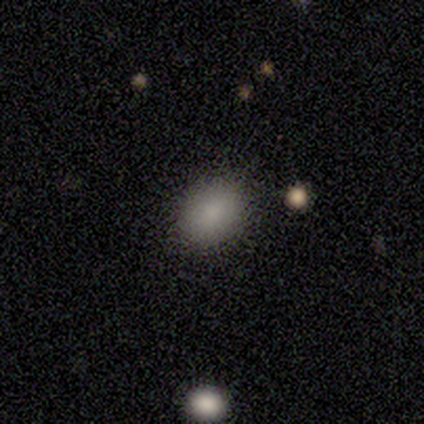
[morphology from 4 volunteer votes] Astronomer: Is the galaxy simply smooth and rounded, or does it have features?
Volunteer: smooth — 75%.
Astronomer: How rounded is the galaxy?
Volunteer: in between — 67%.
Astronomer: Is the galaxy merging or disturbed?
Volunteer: none — 100%.